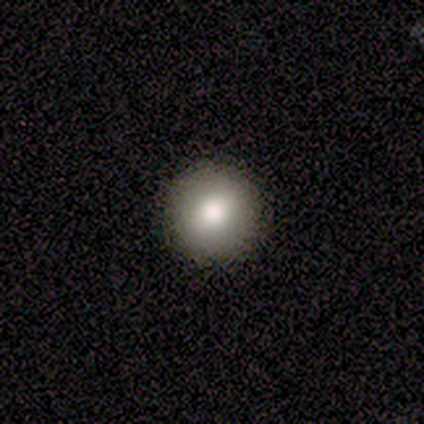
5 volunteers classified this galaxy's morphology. Smooth or featured? 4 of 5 (80%) said smooth. How rounded? 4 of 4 (100%) said round. Merging? 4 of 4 (100%) said none.